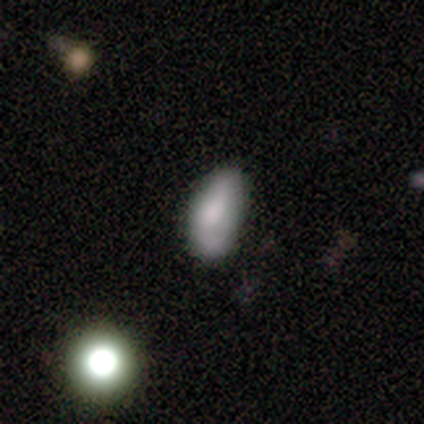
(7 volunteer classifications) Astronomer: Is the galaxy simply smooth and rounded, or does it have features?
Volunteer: smooth — 43%, tied with featured or disk at 43%.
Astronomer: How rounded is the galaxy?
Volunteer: in between — 100%.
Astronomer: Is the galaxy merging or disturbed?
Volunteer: none — 50%, tied with minor disturbance at 50%.